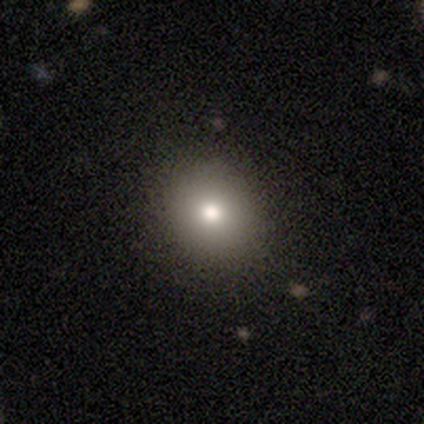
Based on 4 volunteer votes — Smooth or featured? smooth (100%)
How rounded? round (50%, tied with in between)
Merging? none (100%)